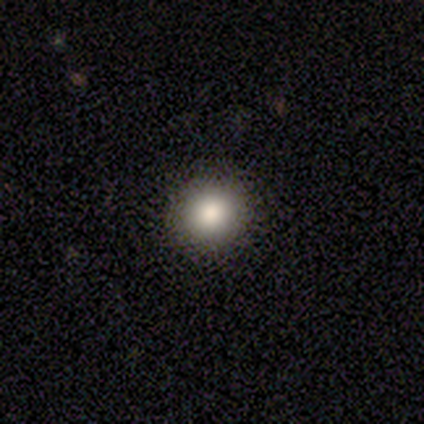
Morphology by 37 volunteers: smooth_or_featured: smooth (p=0.84) [alt: star or artifact p=0.11]
how_rounded: round (p=0.97) [alt: in between p=0.03]
merging: none (p=0.91) [alt: minor disturbance p=0.09]